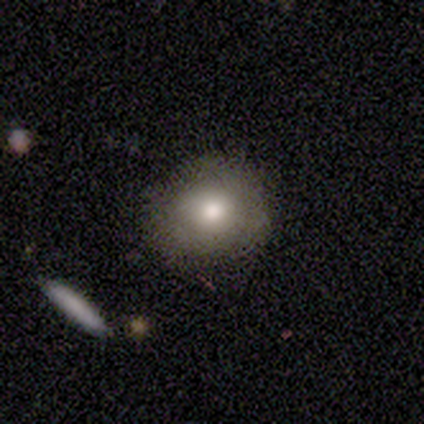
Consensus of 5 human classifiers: A smooth galaxy with no disk features (100%) that is round (100%).

Vote fractions:
- Smooth or featured? smooth: 100% / featured or disk: 0% / star or artifact: 0%
- How rounded? round: 100% / in between: 0% / cigar-shaped: 0%
- Merging? none: 100% / minor disturbance: 0% / major disturbance: 0% / merger: 0%